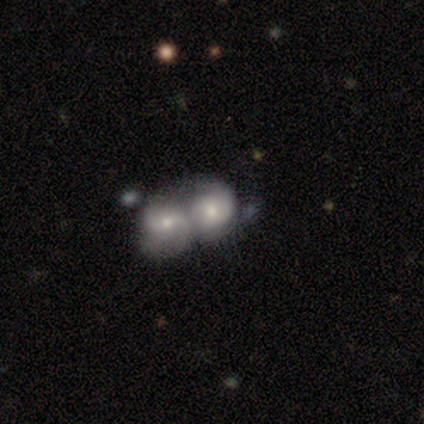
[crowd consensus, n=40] This is likely a featured or disk galaxy (65%). It is clearly not viewed edge-on (96%). Bar: clearly no (80%). Spiral arm pattern: likely yes (72%). Spiral arm count: likely 2 (72%). Spiral winding: possibly medium (50%). Central bulge: likely moderate (72%). Merging: likely merger (79%).